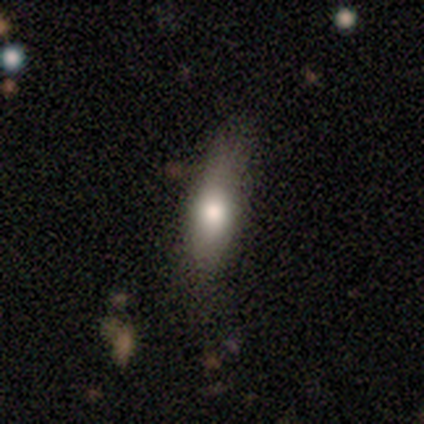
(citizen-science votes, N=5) This appears to be a smooth galaxy with no disk features (100%) that is cigar-shaped (60%). Merging: none (80%).